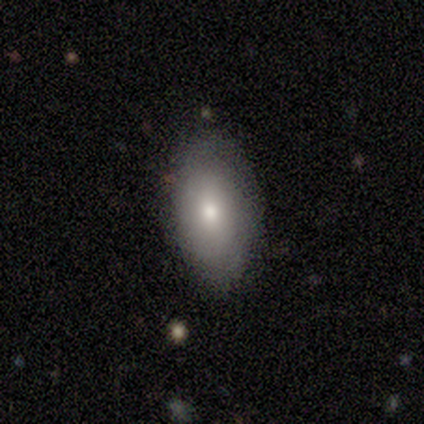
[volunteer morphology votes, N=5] Q: Smooth or featured?
A: smooth (60%); runner-up: featured or disk (40%)
Q: How rounded?
A: in between (100%)
Q: Merging?
A: none (80%); runner-up: minor disturbance (20%)